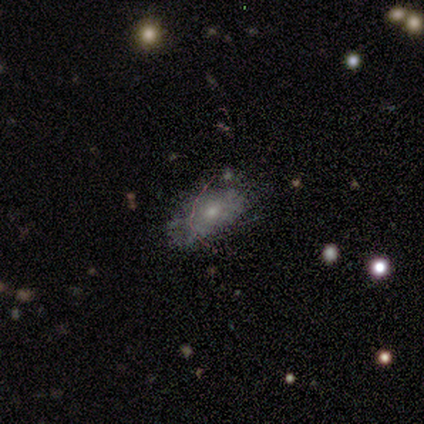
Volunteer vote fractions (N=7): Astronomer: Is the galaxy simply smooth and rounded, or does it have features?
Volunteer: smooth — 71%.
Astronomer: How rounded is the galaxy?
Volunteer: in between — 100%.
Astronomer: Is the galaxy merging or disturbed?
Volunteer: none — 86%.